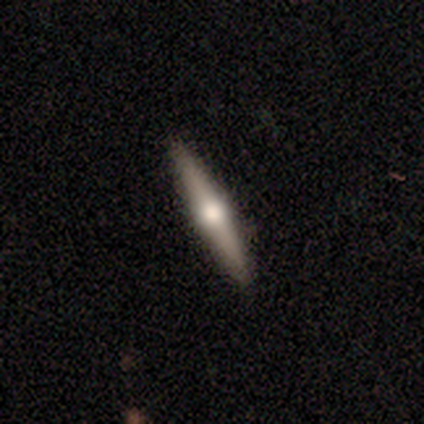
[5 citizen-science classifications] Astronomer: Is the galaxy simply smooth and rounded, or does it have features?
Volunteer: featured or disk — 80%.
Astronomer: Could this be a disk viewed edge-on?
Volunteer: yes — 100%.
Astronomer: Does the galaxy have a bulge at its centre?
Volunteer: rounded — 75%.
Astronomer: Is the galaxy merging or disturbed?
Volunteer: none — 100%.